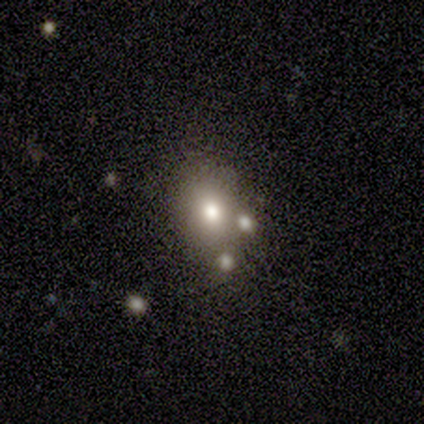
Overall: smooth (86%). How rounded: in between (83%). Merging: none (86%).